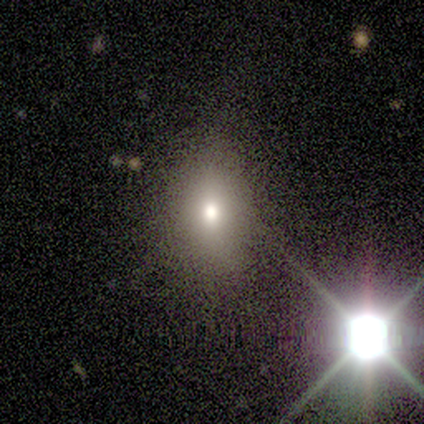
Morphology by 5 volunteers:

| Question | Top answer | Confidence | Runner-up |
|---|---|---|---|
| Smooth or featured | smooth | 80% | star or artifact (20%) |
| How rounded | in between | 75% | round (25%) |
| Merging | none | 100% | — |